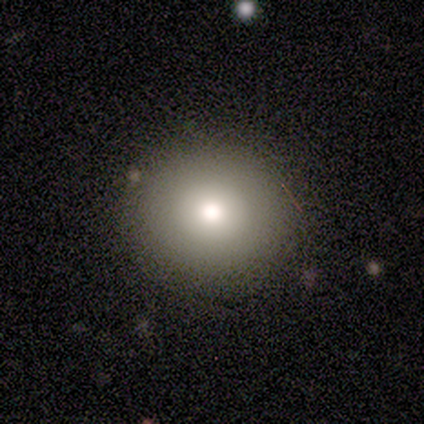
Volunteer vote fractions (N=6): Smooth or featured: smooth — 100%
How rounded: round — 100%
Merging: none — 67% (minor disturbance — 33%)